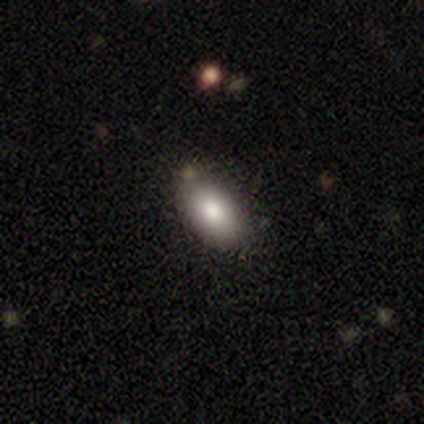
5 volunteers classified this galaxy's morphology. Smooth or featured?
  - smooth: 80% *
  - featured or disk: 20%
  - star or artifact: 0%
How rounded?
  - in between: 75% *
  - round: 25%
  - cigar-shaped: 0%
Merging?
  - none: 80% *
  - minor disturbance: 20%
  - major disturbance: 0%
  - merger: 0%